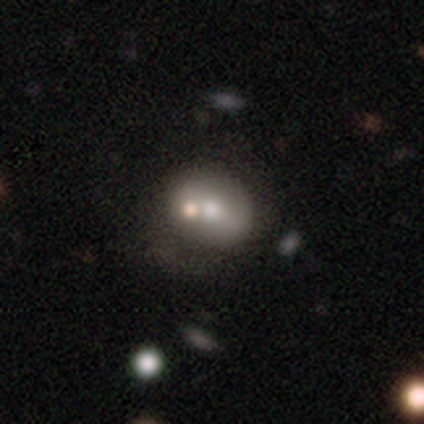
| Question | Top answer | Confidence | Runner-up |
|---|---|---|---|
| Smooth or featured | smooth | 43% | featured or disk (29%) |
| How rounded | in between | 67% | round (33%) |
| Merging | none | 60% | merger (40%) |